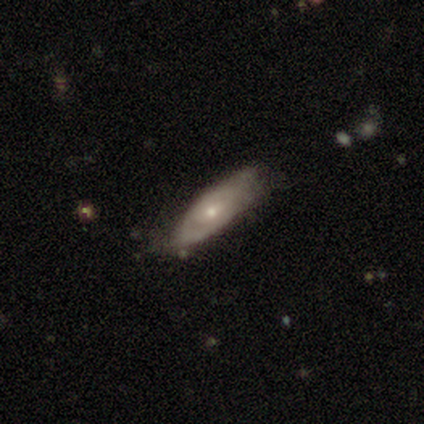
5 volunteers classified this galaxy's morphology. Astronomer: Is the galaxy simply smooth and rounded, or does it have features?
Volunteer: featured or disk — 60% (runner-up: smooth, 40%).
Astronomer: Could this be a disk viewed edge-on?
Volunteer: no — 67%.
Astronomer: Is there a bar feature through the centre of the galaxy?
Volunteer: no — 100%.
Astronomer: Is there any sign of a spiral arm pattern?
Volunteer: yes — 100%.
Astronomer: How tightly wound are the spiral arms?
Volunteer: tight — 50%, tied with medium at 50%.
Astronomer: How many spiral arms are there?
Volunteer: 1 — 50%, tied with can't tell at 50%.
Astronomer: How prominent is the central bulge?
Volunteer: moderate — 50%, tied with small at 50%.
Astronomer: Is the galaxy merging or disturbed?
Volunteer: none — 80%.